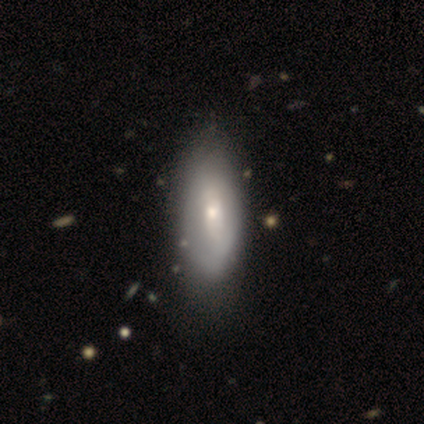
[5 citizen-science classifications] Smooth or featured?
  - featured or disk: 60% *
  - smooth: 40%
  - star or artifact: 0%
Edge-on disk?
  - no: 67% *
  - yes: 33%
Bar?
  - weak: 100% *
  - strong: 0%
  - no: 0%
Spiral arms?
  - no: 100% *
  - yes: 0%
Bulge size?
  - large: 50% * (tied)
  - moderate: 50% * (tied)
  - dominant: 0%
  - small: 0%
  - none: 0%
Merging?
  - minor disturbance: 60% *
  - none: 20%
  - major disturbance: 20%
  - merger: 0%